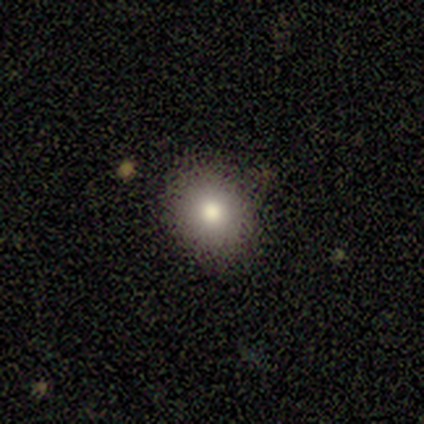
This is clearly a smooth galaxy (87%). How rounded: likely round (69%). Merging: clearly none (80%).